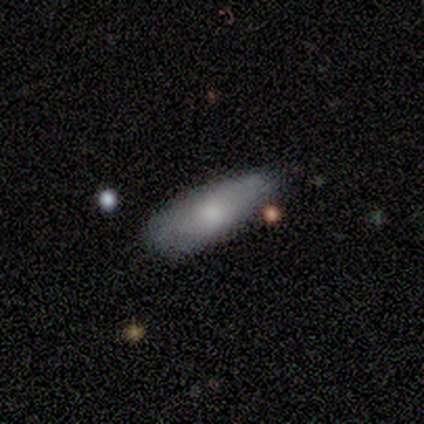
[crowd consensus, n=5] Q: Smooth or featured?
A: smooth (80%); runner-up: star or artifact (20%)
Q: How rounded?
A: in between (75%); runner-up: cigar-shaped (25%)
Q: Merging?
A: none (50%); tied with: minor disturbance (50%)